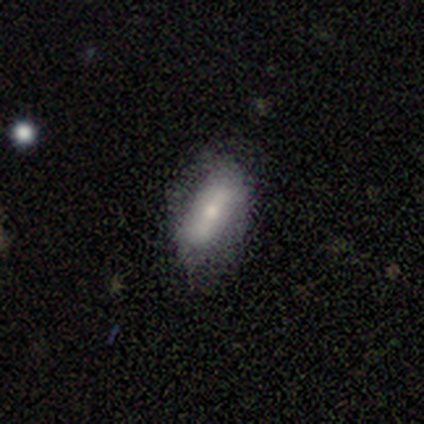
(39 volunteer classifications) Volunteers were most divided on "smooth or featured": smooth: 56%, featured or disk: 38%, star or artifact: 5%. More confident: merging — none (76%); how rounded — in between (73%).